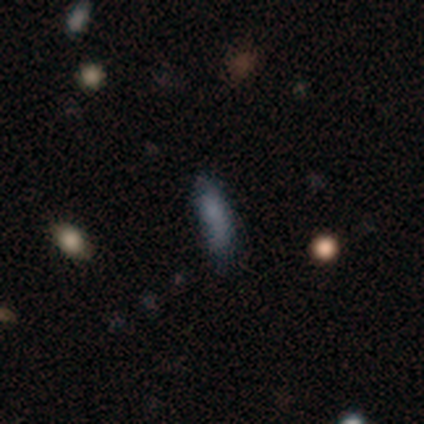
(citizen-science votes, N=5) Overall: smooth (60%; star or artifact 40%). How rounded: in between (67%; cigar-shaped 33%). Merging: none (100%).